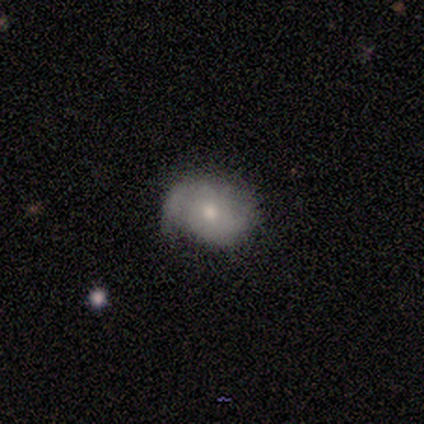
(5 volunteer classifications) This appears to be a smooth galaxy with no disk features (40%, tied with featured or disk) that is in between round and cigar-shaped (100%). Merging: minor disturbance (50%).